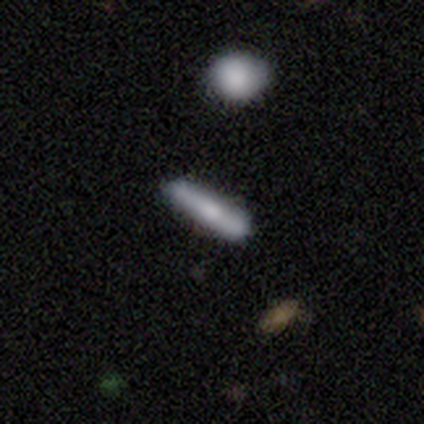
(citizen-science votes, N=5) Smooth or featured: smooth — 60% (featured or disk — 20%)
How rounded: cigar-shaped — 67% (in between — 33%)
Merging: none — 75% (minor disturbance — 25%)